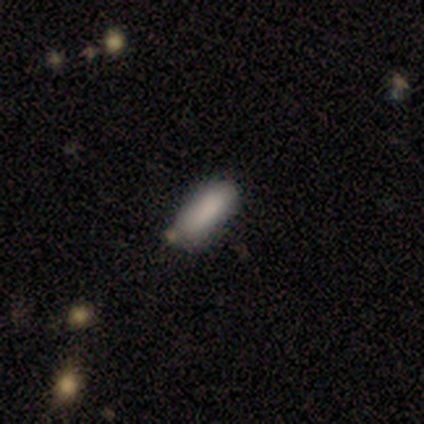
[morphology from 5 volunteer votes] Smooth or featured: smooth — 100%
How rounded: in between — 80% (cigar-shaped — 20%)
Merging: none — 80% (minor disturbance — 20%)